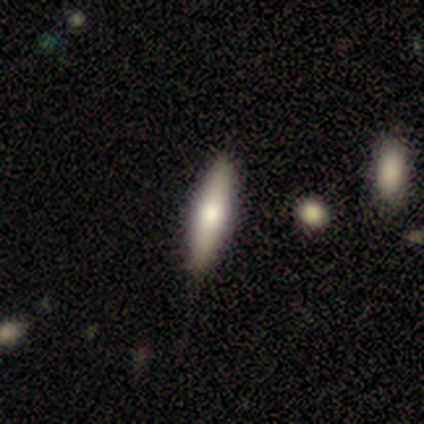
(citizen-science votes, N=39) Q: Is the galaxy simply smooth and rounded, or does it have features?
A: smooth — 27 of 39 (69%).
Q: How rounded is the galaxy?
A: cigar-shaped — 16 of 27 (59%).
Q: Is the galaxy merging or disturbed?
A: none — 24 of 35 (69%).